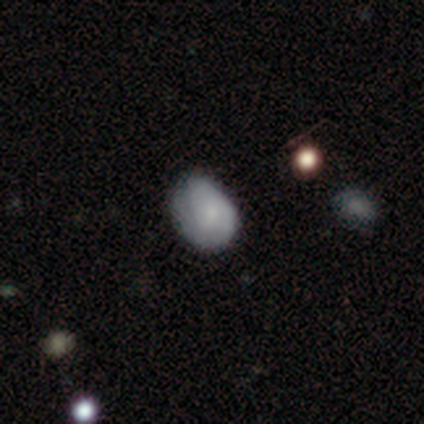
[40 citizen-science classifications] smooth_or_featured: smooth (p=0.60) [alt: featured or disk p=0.33]
how_rounded: in between (p=0.67) [alt: round p=0.33]
merging: none (p=0.46) [alt: minor disturbance p=0.27]